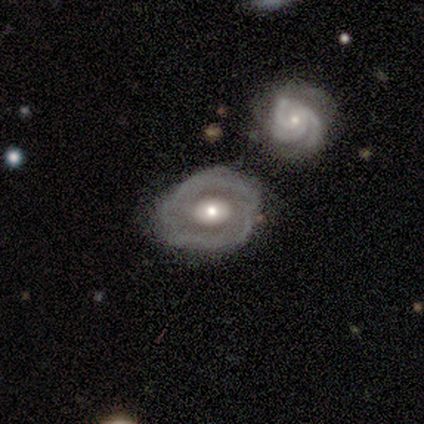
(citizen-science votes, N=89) This appears to be a featured or disk galaxy (78%) with no bar (73%), no spiral arms (57%) and a moderate central bulge (57%). Merging: none (43%).